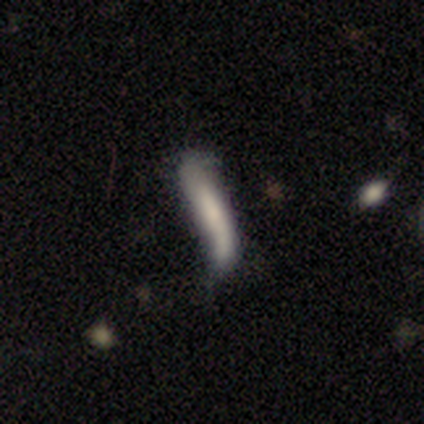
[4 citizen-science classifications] This is likely a featured or disk galaxy (75%). It is likely not viewed edge-on (67%). Bar: possibly weak (50%, tied with no). Spiral arm pattern: possibly yes (50%, tied with no). Spiral arm count: clearly 2 (100%). Spiral winding: clearly loose (100%). Central bulge: clearly moderate (100%). Merging: possibly minor disturbance (50%).